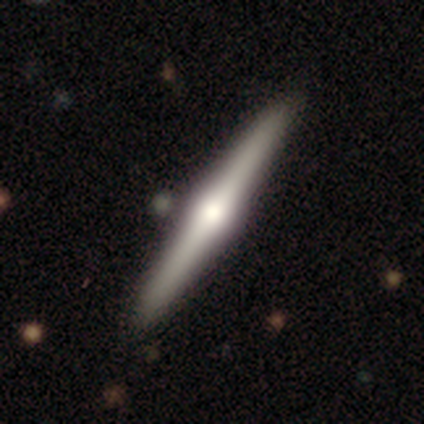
smooth_or_featured: featured or disk (p=0.57) [alt: smooth p=0.29]
disk_edge_on: yes (p=1.00)
edge_on_bulge: rounded (p=1.00)
merging: none (p=0.67) [alt: minor disturbance p=0.33]